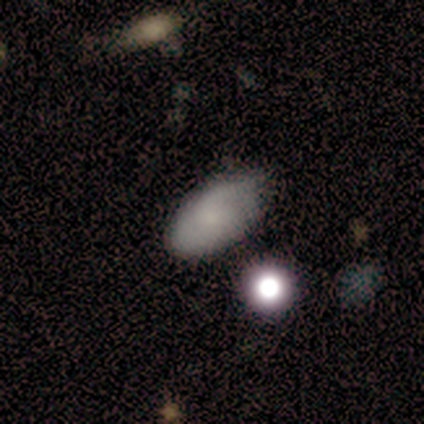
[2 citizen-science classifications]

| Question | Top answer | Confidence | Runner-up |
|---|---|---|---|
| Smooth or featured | smooth | 100% | — |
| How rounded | in between | 100% | — |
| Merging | none | 50% | tied: minor disturbance (50%) |